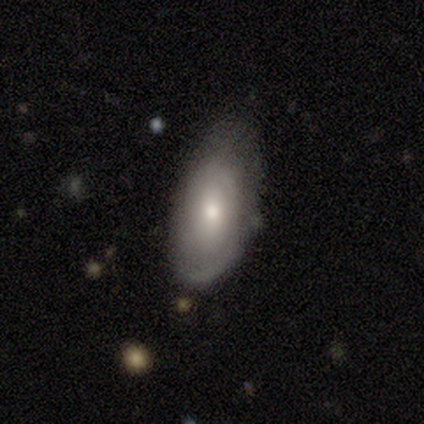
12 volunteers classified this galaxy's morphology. smooth_or_featured: featured or disk (p=0.83) [alt: smooth p=0.17]
disk_edge_on: no (p=0.90) [alt: yes p=0.10]
bar: no (p=0.78) [alt: strong p=0.11]
has_spiral_arms: yes (p=0.89) [alt: no p=0.11]
spiral_winding: tight (p=0.62) [alt: medium p=0.25]
spiral_arm_count: can't tell (p=0.62) [alt: 2 p=0.25]
bulge_size: moderate (p=0.44) [tied with: small p=0.44]
merging: none (p=0.50) [alt: minor disturbance p=0.42]